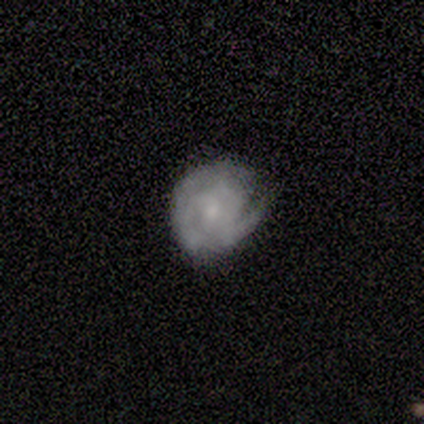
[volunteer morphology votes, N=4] Smooth or featured: featured or disk — 75% (smooth — 25%)
Edge-on disk: no — 100%
Bar: no — 100%
Spiral arms: yes — 100%
Spiral winding: tight — 67% (medium — 33%)
Spiral arm count: 1 — 67% (can't tell — 33%)
Bulge size: small — 67% (large — 33%)
Merging: none — 100%